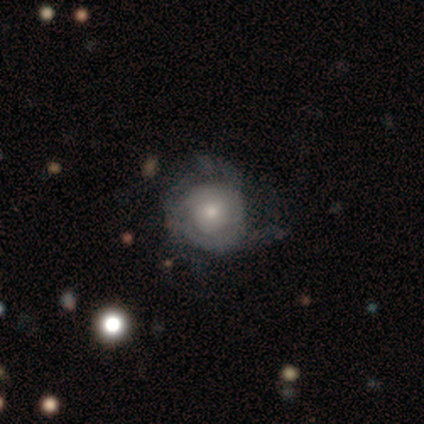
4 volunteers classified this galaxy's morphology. A smooth galaxy with no disk features (75%) that is round (100%). Merging: major disturbance (50%).